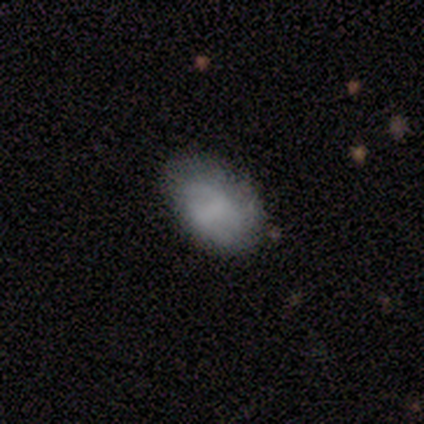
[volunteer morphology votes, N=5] A smooth galaxy with no disk features (60%) that is in between round and cigar-shaped (100%). Merging: minor disturbance (60%).